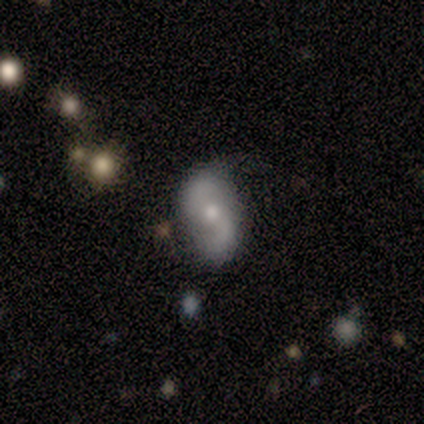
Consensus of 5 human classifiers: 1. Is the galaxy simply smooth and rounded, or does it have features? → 80% featured or disk, 20% smooth, 0% star or artifact.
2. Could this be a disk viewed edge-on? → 100% no, 0% yes.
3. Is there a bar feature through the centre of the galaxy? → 75% no, 25% weak, 0% strong.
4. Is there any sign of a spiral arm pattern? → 100% yes, 0% no.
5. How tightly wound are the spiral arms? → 75% loose, 25% medium, 0% tight.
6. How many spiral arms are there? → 100% 2, 0% 1, 0% 3, 0% 4, 0% more than 4, 0% can't tell.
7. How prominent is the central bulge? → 75% small, 25% large, 0% dominant, 0% moderate, 0% none.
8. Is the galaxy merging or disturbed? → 80% none, 20% major disturbance, 0% minor disturbance, 0% merger.